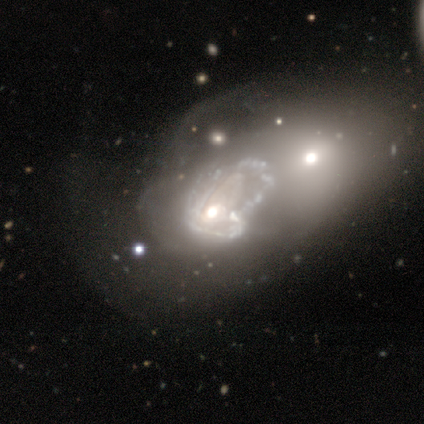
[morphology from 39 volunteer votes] smooth_or_featured: featured or disk (p=0.85) [alt: smooth p=0.13]
disk_edge_on: no (p=1.00)
bar: no (p=0.85) [alt: weak p=0.15]
has_spiral_arms: no (p=0.73) [alt: yes p=0.27]
bulge_size: moderate (p=0.55) [alt: small p=0.18]
merging: merger (p=0.50) [alt: major disturbance p=0.39]